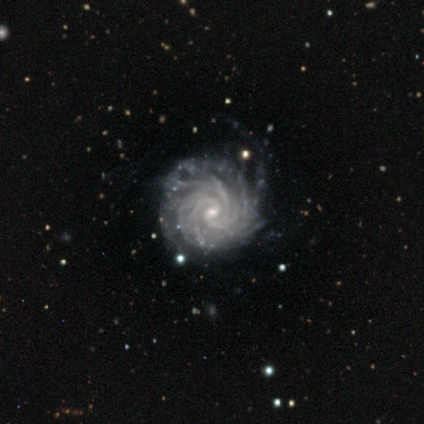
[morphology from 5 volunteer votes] Smooth or featured: featured or disk — 100%
Edge-on disk: no — 100%
Bar: no — 60% (weak — 40%)
Spiral arms: yes — 100%
Spiral winding: tight — 100%
Spiral arm count: more than 4 — 80% (3 — 20%)
Bulge size: small — 80% (moderate — 20%)
Merging: none — 40% (tied with minor disturbance — 40%)